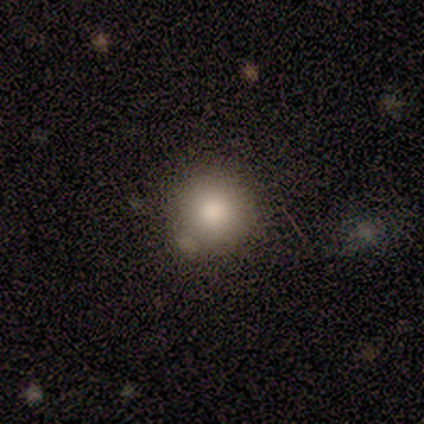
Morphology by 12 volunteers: smooth-or-featured: smooth: 83% | star or artifact: 17% | featured or disk: 0%
  how-rounded: round: 100% | in between: 0% | cigar-shaped: 0%
  merging: none: 90% | merger: 10% | minor disturbance: 0% | major disturbance: 0%